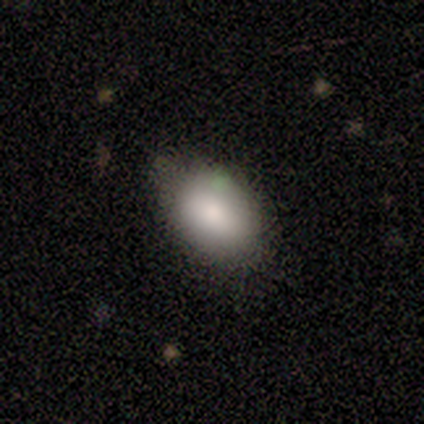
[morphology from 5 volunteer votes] smooth_or_featured: smooth (p=1.00)
how_rounded: in between (p=0.80) [alt: round p=0.20]
merging: none (p=1.00)